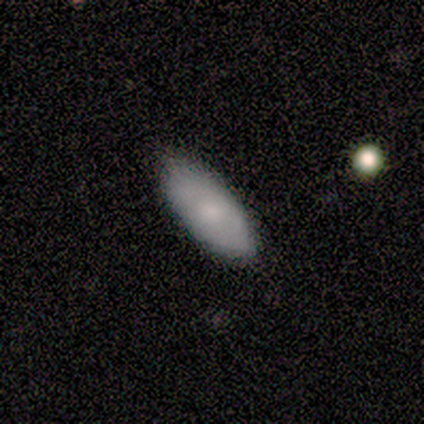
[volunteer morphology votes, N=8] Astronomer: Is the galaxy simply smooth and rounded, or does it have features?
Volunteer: smooth — 50% (runner-up: featured or disk, 38%).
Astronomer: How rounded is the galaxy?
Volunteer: in between — 75%.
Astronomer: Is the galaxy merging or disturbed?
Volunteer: none — 86%.